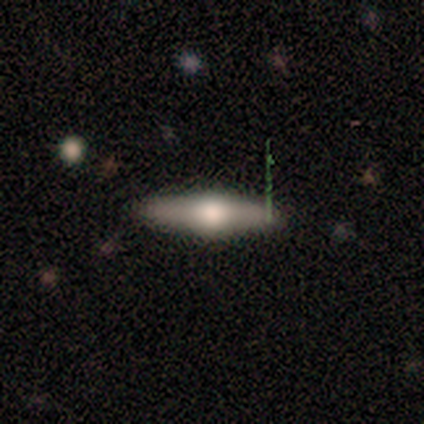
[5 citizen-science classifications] Smooth or featured: smooth — 60% (featured or disk — 40%)
How rounded: cigar-shaped — 67% (in between — 33%)
Merging: none — 100%